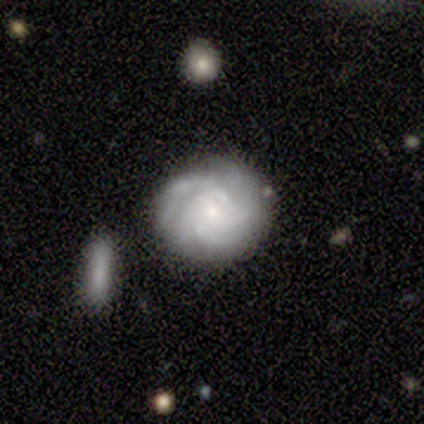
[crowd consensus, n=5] Q: Smooth or featured?
A: featured or disk (100%)
Q: Edge-on disk?
A: no (100%)
Q: Bar?
A: no (80%); runner-up: weak (20%)
Q: Spiral arms?
A: yes (100%)
Q: Spiral winding?
A: tight (80%); runner-up: medium (20%)
Q: Spiral arm count?
A: 3 (40%); tied with: 4 (40%)
Q: Bulge size?
A: small (100%)
Q: Merging?
A: none (80%); runner-up: merger (20%)